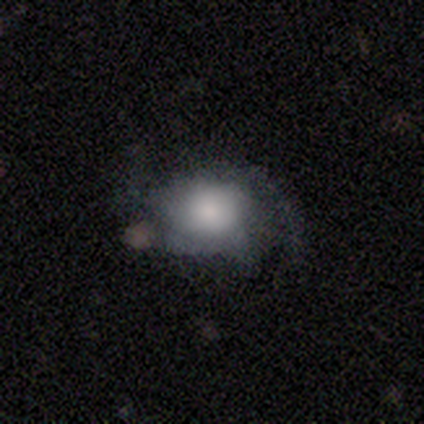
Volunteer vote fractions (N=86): Q: Smooth or featured?
A: smooth (50%); runner-up: featured or disk (40%)
Q: How rounded?
A: in between (63%); runner-up: round (37%)
Q: Merging?
A: none (56%); runner-up: minor disturbance (31%)